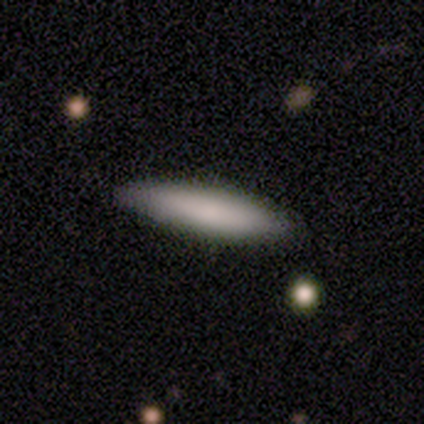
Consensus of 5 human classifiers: smooth_or_featured: smooth (p=1.00)
how_rounded: cigar-shaped (p=0.60) [alt: in between p=0.40]
merging: none (p=0.80) [alt: minor disturbance p=0.20]